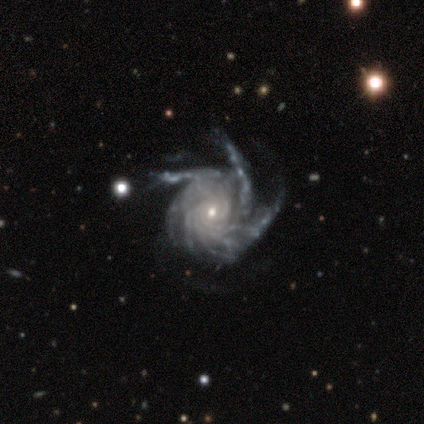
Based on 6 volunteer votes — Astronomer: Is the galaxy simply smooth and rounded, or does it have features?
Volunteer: featured or disk — 83%.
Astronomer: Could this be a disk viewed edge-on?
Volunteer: no — 100%.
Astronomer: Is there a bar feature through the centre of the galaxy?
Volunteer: no — 80%.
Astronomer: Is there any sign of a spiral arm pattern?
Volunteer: yes — 100%.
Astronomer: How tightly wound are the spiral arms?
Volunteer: tight — 80%.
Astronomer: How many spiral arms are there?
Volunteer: more than 4 — 80%.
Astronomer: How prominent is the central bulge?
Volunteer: moderate — 60% (runner-up: small, 40%).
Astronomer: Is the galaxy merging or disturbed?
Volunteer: none — 83%.